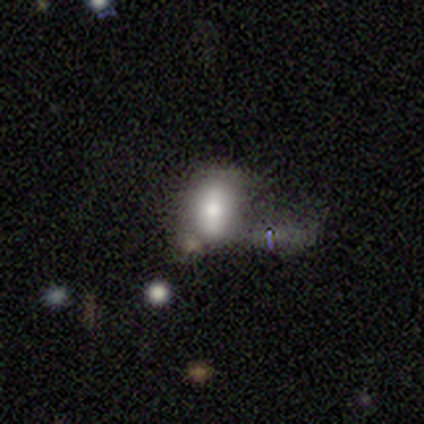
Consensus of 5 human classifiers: Smooth or featured? 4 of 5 (80%) said smooth. How rounded? 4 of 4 (100%) said in between. Merging? 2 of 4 (50%) said none.